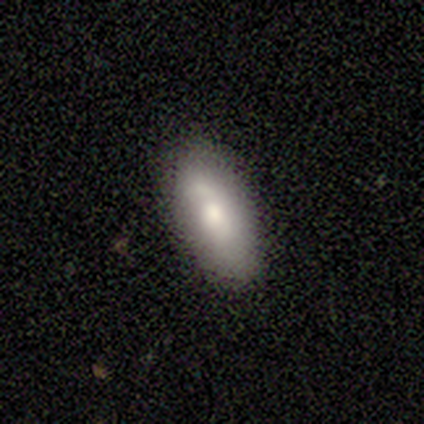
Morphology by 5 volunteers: This is clearly a smooth galaxy (80%). How rounded: clearly in between (100%). Merging: marginally none (40%, tied with minor disturbance).